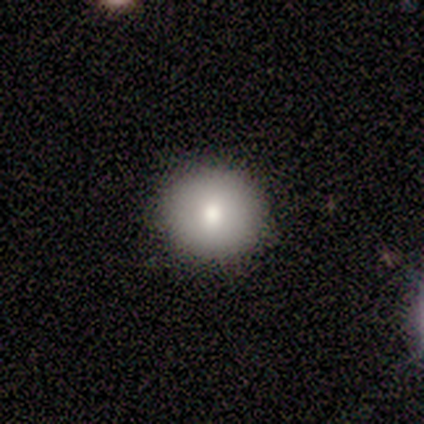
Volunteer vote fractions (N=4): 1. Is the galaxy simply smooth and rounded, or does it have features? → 100% smooth, 0% featured or disk, 0% star or artifact.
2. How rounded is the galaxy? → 100% round, 0% in between, 0% cigar-shaped.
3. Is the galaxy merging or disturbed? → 75% none, 25% minor disturbance, 0% major disturbance, 0% merger.